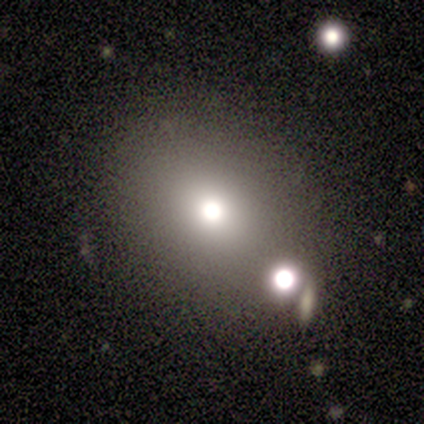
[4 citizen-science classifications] Smooth or featured: smooth — 50% (tied with star or artifact — 50%)
How rounded: round — 100%
Merging: none — 100%